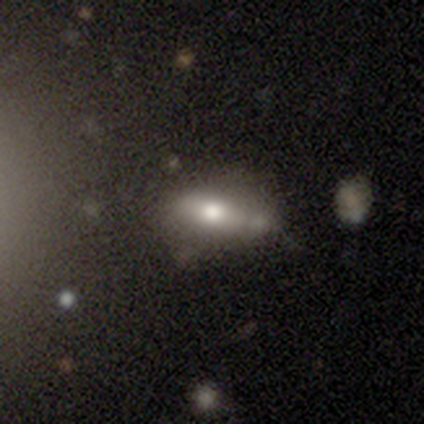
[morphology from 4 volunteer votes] This appears to be a smooth galaxy with no disk features (75%) that is in between round and cigar-shaped (67%). Merging: none (100%).